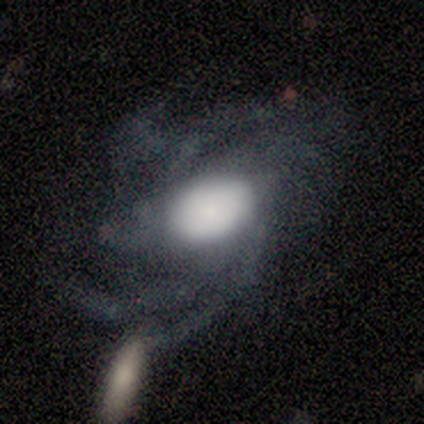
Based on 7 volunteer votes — This is clearly a featured or disk galaxy (100%). It is clearly not viewed edge-on (100%). Bar: likely no (71%). Spiral arm pattern: clearly yes (100%). Spiral arm count: possibly more than 4 (57%). Spiral winding: possibly tight (57%). Central bulge: likely large (71%). Merging: marginally none (29%, tied with minor disturbance and major disturbance).